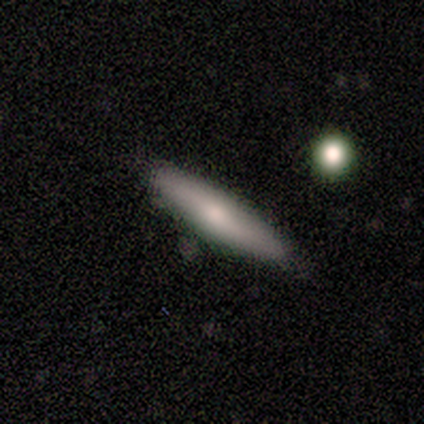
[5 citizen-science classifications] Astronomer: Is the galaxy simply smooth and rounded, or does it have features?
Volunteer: smooth — 40%, tied with featured or disk at 40%.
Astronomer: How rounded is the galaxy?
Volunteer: cigar-shaped — 100%.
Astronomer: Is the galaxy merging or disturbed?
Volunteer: none — 75%.